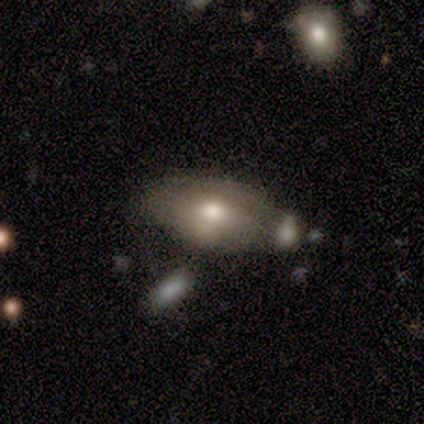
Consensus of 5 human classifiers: Overall: smooth (60%; featured or disk 20%). How rounded: in between (100%). Merging: minor disturbance (75%).